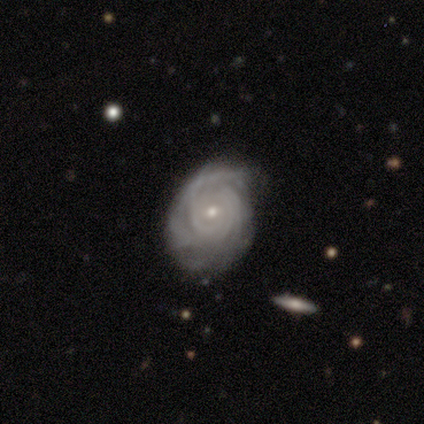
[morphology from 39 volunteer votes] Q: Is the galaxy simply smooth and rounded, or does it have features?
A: featured or disk — 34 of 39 (87%).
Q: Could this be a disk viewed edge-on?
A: no — 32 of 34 (94%).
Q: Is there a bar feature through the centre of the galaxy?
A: no — 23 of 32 (72%).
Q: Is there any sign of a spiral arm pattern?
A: yes — 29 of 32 (91%).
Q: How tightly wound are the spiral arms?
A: tight — 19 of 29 (66%).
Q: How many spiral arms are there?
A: can't tell — 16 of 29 (55%).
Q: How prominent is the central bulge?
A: small — 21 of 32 (66%).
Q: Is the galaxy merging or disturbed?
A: none — 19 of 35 (54%).